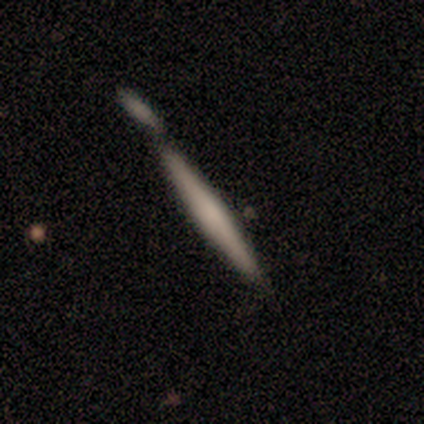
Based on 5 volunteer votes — Smooth or featured: featured or disk — 60% (smooth — 20%)
Edge-on disk: yes — 100%
Edge-on bulge: rounded — 67% (none — 33%)
Merging: major disturbance — 50% (none — 25%)